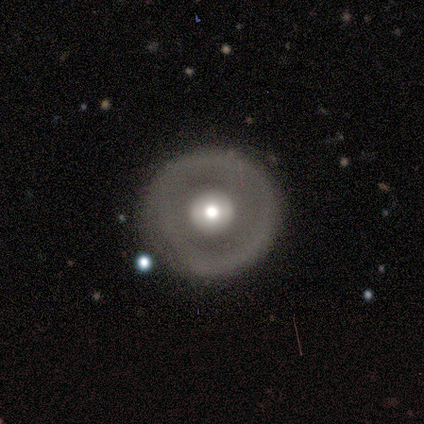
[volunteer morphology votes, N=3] Q: Smooth or featured?
A: smooth (67%); runner-up: featured or disk (33%)
Q: How rounded?
A: round (100%)
Q: Merging?
A: none (100%)